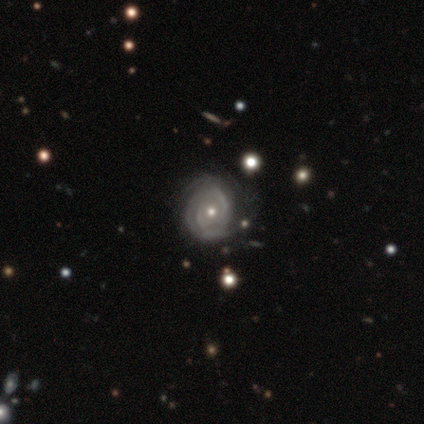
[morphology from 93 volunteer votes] Overall: featured or disk (94%). Edge-on disk: no (95%). Bar: no (73%). Spiral arms: yes (95%). Spiral arm count: 2 (42%; can't tell 38%). Spiral winding: tight (67%; medium 28%). Bulge size: moderate (54%; small 46%). Merging: none (71%).